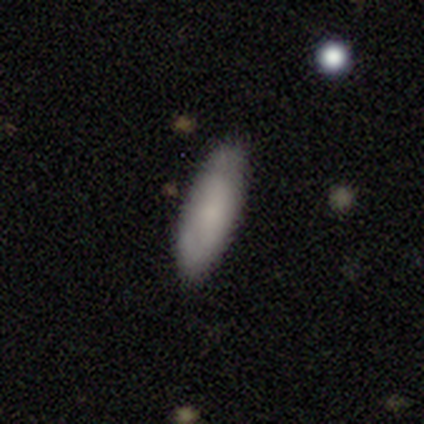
smooth 60%, featured or disk 20%, star or artifact 20%. Down the decision tree: how rounded — cigar-shaped (67%); merging — none (50%).